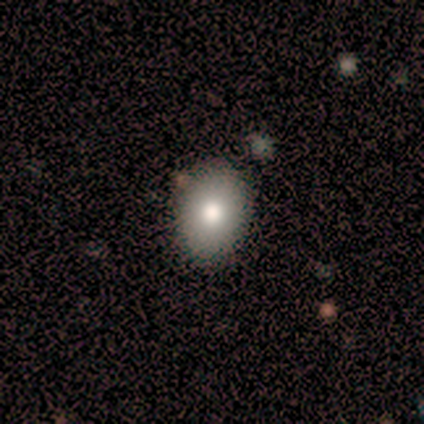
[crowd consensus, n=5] This appears to be a smooth galaxy with no disk features (80%) that is round (50%, tied with in between). Merging: none (80%).